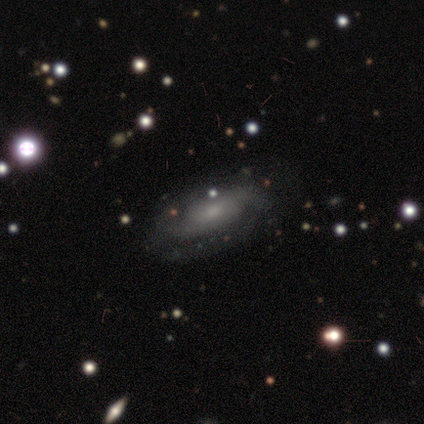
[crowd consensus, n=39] This is likely a featured or disk galaxy (77%). It is clearly not viewed edge-on (90%). Bar: likely no (78%). Spiral arm pattern: clearly yes (96%). Spiral arm count: clearly 2 (92%). Spiral winding: marginally loose (42%). Central bulge: likely small (63%). Merging: likely none (62%).